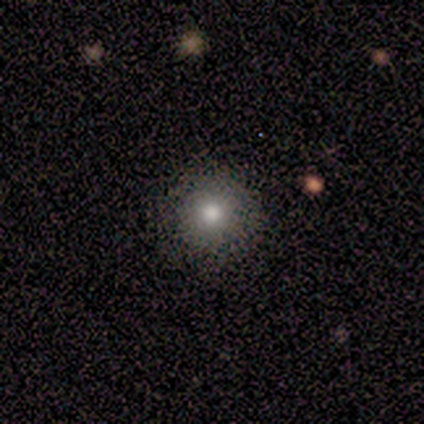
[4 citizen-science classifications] Smooth or featured? smooth (75%)
How rounded? round (100%)
Merging? none (100%)